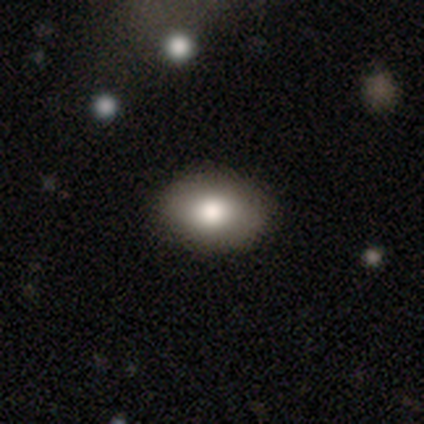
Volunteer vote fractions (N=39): smooth 85%, featured or disk 13%, star or artifact 3%. Down the decision tree: how rounded — in between (88%); merging — none (87%).